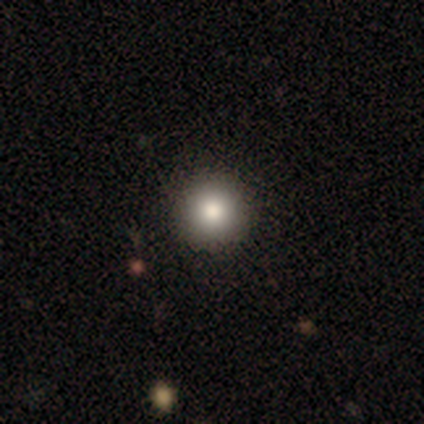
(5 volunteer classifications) Morphology: type=featured or disk (40%, tied with star or artifact); edge-on=no (100%); bar=strong (50%, tied with no); spiral arms=yes (50%, tied with no); winding=tight (100%); arm count=more than 4 (100%); bulge=large (100%); merging=none (67%).